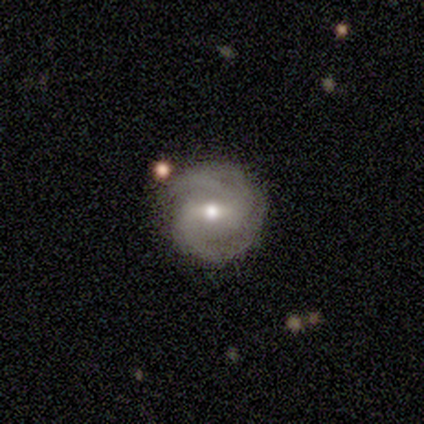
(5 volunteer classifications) Volunteers were most divided on "bar": weak: 60%, no: 40%, strong: 0%. Remaining: smooth or featured — featured or disk (100%); edge-on disk — no (100%); spiral arms — yes (100%); merging — none (80%); bulge size — small (60%); spiral winding — tight (60%); spiral arm count — 3 (40%).